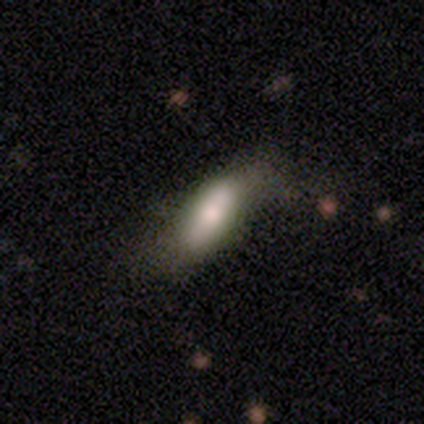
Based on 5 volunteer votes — This appears to be a smooth galaxy with no disk features (60%) that is in between round and cigar-shaped (100%). Merging: none (60%).